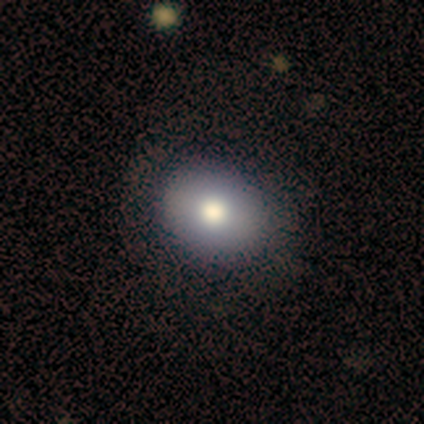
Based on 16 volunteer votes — Morphology: type=smooth (88%); roundness=round (79%); merging=none (93%).